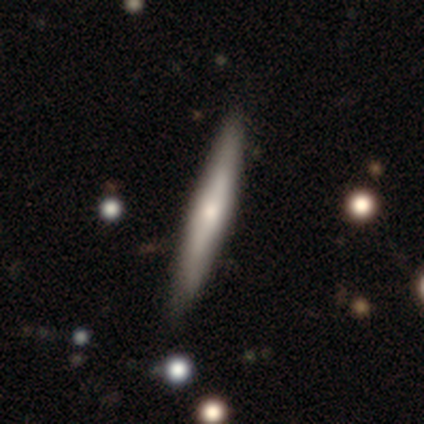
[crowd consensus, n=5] A featured or disk galaxy (80%) viewed edge-on (100%) with a rounded central bulge (75%).

Vote fractions:
- Smooth or featured? featured or disk: 80% / smooth: 20% / star or artifact: 0%
- Edge-on disk? yes: 100% / no: 0%
- Edge-on bulge? rounded: 75% / none: 25% / boxy: 0%
- Merging? none: 80% / minor disturbance: 20% / major disturbance: 0% / merger: 0%